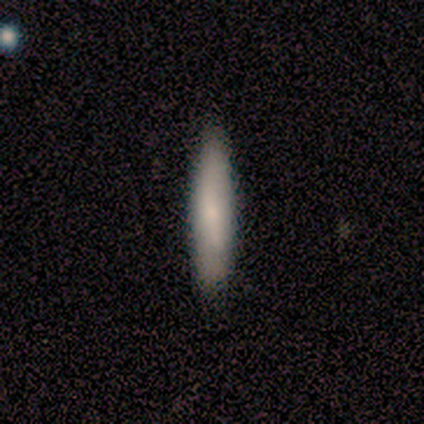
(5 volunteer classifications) Smooth or featured: smooth — 80% (featured or disk — 20%)
How rounded: cigar-shaped — 100%
Merging: none — 80% (merger — 20%)